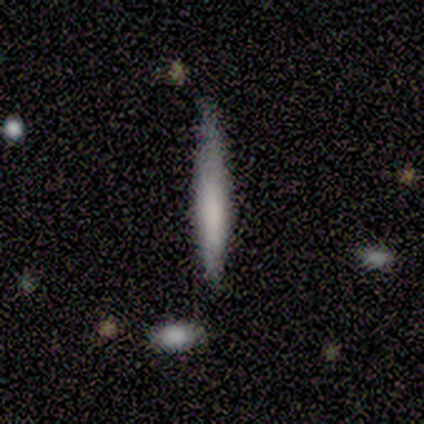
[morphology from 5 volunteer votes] Smooth or featured?
  - featured or disk: 60% *
  - smooth: 40%
  - star or artifact: 0%
Edge-on disk?
  - yes: 100% *
  - no: 0%
Edge-on bulge?
  - none: 67% *
  - boxy: 33%
  - rounded: 0%
Merging?
  - none: 40% * (tied)
  - minor disturbance: 40% * (tied)
  - major disturbance: 20%
  - merger: 0%